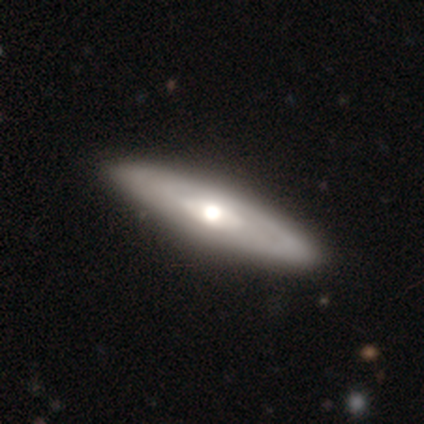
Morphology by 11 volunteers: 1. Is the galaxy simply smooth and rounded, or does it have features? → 45% featured or disk, 27% smooth, 27% star or artifact.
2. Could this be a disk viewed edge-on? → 80% no, 20% yes.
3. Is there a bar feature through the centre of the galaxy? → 100% no, 0% strong, 0% weak.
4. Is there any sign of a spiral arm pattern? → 75% no, 25% yes.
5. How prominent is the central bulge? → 75% moderate, 25% small, 0% dominant, 0% large, 0% none.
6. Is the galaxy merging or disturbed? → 100% none, 0% minor disturbance, 0% major disturbance, 0% merger.